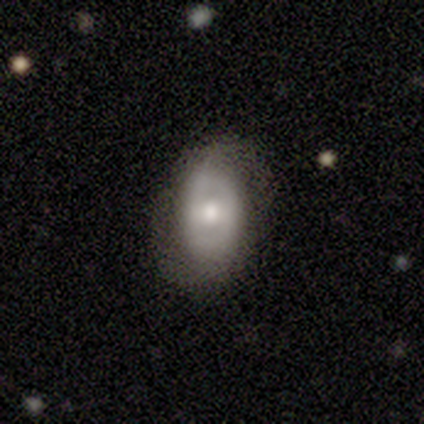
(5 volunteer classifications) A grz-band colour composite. It shows a featured or disk galaxy (80%) with a weak bar (50%), no spiral arms (75%) and a moderate central bulge (100%). Merging: none (80%).